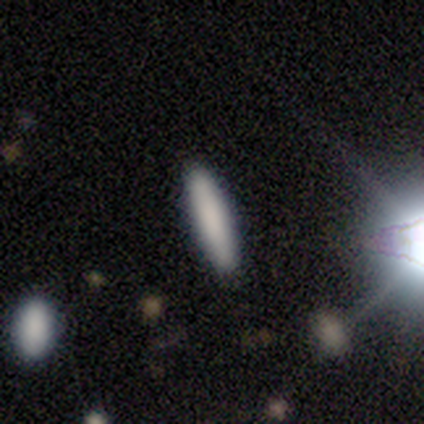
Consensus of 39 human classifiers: Morphology: type=smooth (95%); roundness=cigar-shaped (92%); merging=none (86%).